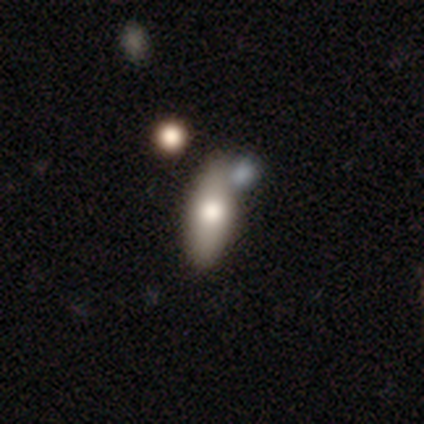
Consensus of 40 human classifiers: Smooth or featured? 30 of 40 (75%) said smooth. How rounded? 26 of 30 (87%) said in between. Merging? 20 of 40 (50%) said none.